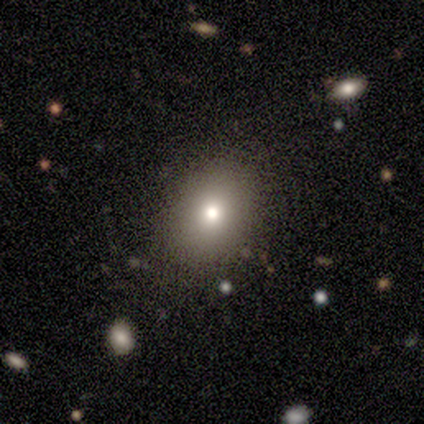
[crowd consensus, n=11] Smooth or featured?
  - smooth: 36% * (tied)
  - featured or disk: 36% * (tied)
  - star or artifact: 27%
How rounded?
  - round: 50% * (tied)
  - in between: 50% * (tied)
  - cigar-shaped: 0%
Merging?
  - none: 88% *
  - minor disturbance: 12%
  - major disturbance: 0%
  - merger: 0%